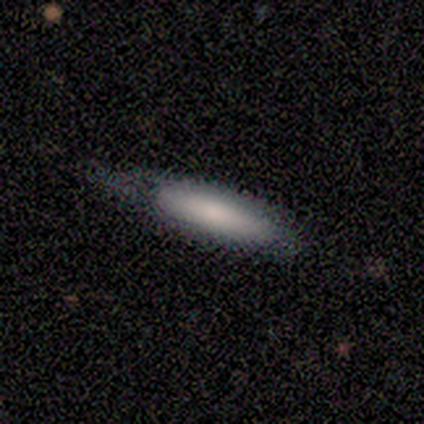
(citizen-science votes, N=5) Overall: smooth (100%). How rounded: cigar-shaped (100%). Merging: minor disturbance (80%).